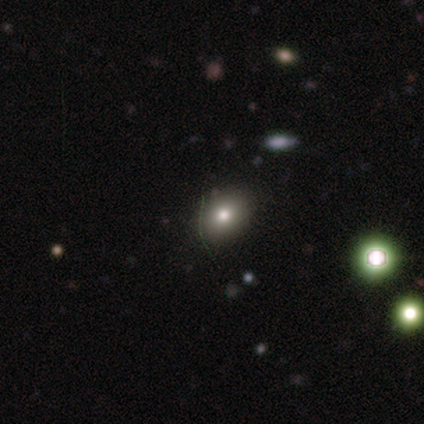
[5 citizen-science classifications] smooth 40% (tied), featured or disk 40% (tied), star or artifact 20%. Down the decision tree: how rounded — in between (100%); merging — none (100%).